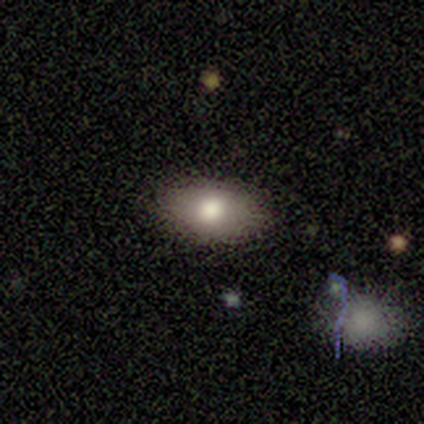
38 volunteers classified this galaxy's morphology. smooth-or-featured: smooth: 79% | featured or disk: 13% | star or artifact: 8%
  how-rounded: in between: 97% | round: 3% | cigar-shaped: 0%
  merging: none: 97% | merger: 3% | minor disturbance: 0% | major disturbance: 0%